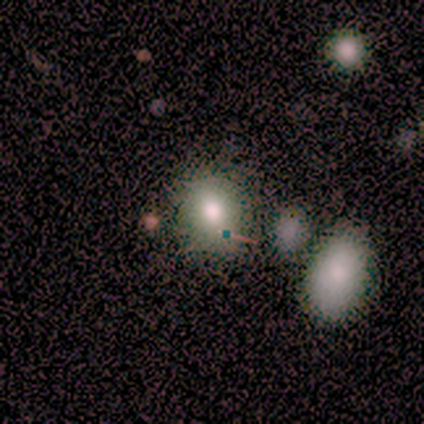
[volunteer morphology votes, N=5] Smooth or featured? smooth (80%)
How rounded? round (75%)
Merging? none (75%)